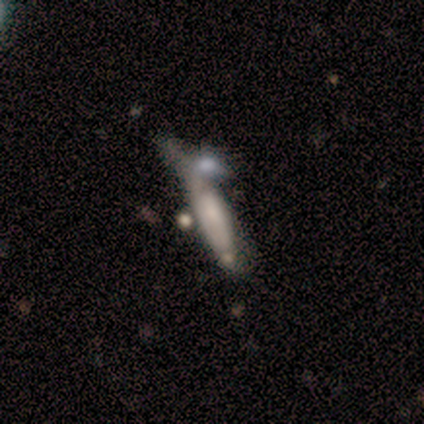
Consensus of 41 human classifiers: This appears to be a featured or disk galaxy (61%) with no bar (92%), no spiral arms (54%) and no central bulge (46%). Merging: minor disturbance (38%).